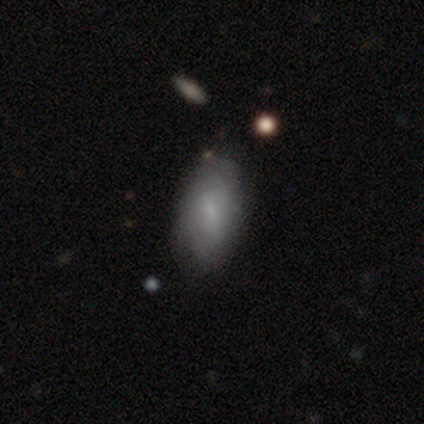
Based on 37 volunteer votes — This is likely a smooth galaxy (65%). How rounded: clearly in between (92%). Merging: clearly none (85%).